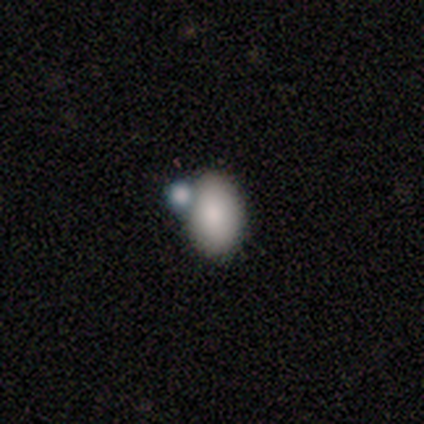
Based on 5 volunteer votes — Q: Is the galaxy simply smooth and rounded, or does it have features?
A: smooth — 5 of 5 (100%).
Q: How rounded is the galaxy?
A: in between — 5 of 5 (100%).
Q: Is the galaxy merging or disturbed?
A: merger — 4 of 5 (80%).